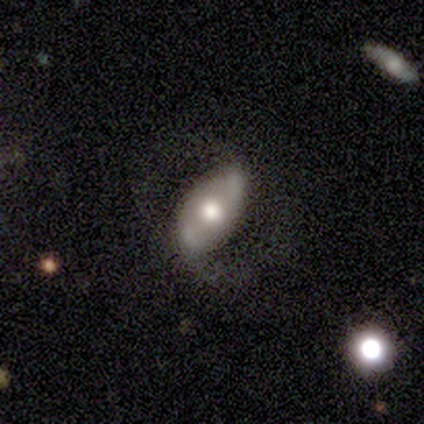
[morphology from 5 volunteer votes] Smooth or featured?
  - featured or disk: 80% *
  - smooth: 20%
  - star or artifact: 0%
Edge-on disk?
  - no: 100% *
  - yes: 0%
Bar?
  - no: 100% *
  - strong: 0%
  - weak: 0%
Spiral arms?
  - yes: 75% *
  - no: 25%
Spiral winding?
  - loose: 100% *
  - tight: 0%
  - medium: 0%
Spiral arm count?
  - 2: 100% *
  - 1: 0%
  - 3: 0%
  - 4: 0%
  - more than 4: 0%
  - can't tell: 0%
Bulge size?
  - moderate: 50% *
  - dominant: 25%
  - large: 25%
  - small: 0%
  - none: 0%
Merging?
  - none: 80% *
  - minor disturbance: 20%
  - major disturbance: 0%
  - merger: 0%